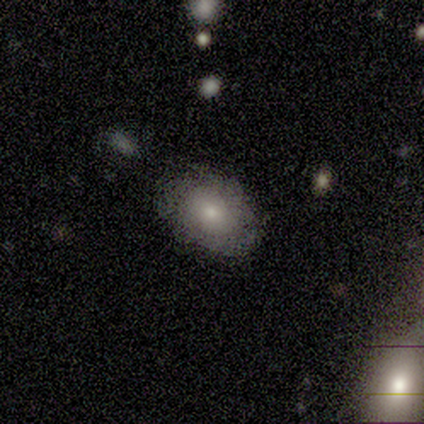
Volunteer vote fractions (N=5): This is clearly a smooth galaxy (80%). How rounded: likely round (75%). Merging: clearly none (80%).